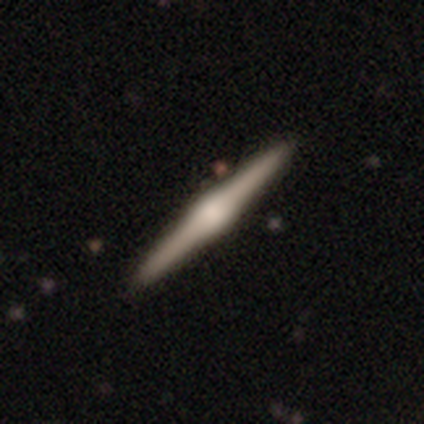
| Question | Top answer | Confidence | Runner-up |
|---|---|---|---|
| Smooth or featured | featured or disk | 90% | smooth (10%) |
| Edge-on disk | yes | 100% | — |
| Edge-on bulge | rounded | 89% | boxy (11%) |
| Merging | none | 90% | minor disturbance (10%) |